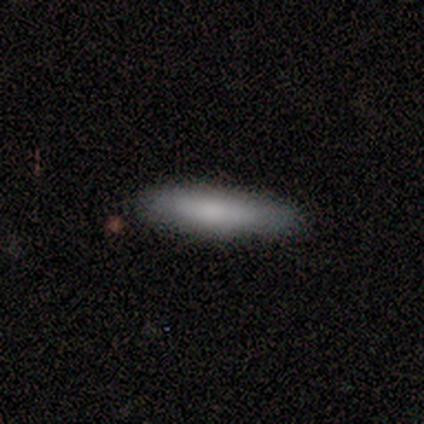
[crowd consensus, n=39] A smooth galaxy with no disk features (79%) that is cigar-shaped (87%).

Vote fractions:
- Smooth or featured? smooth: 79% / featured or disk: 15% / star or artifact: 5%
- How rounded? cigar-shaped: 87% / in between: 13% / round: 0%
- Merging? none: 92% / minor disturbance: 3% / major disturbance: 3% / merger: 3%